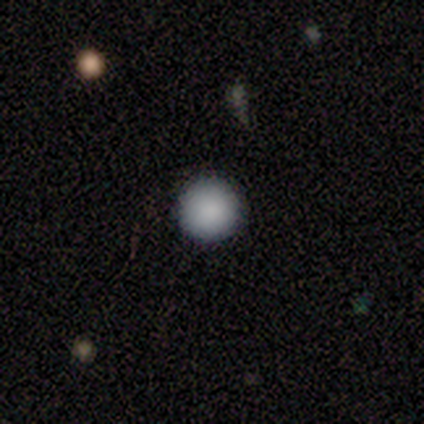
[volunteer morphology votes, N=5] This appears to be a smooth galaxy with no disk features (80%) that is round (100%). Merging: none (100%).